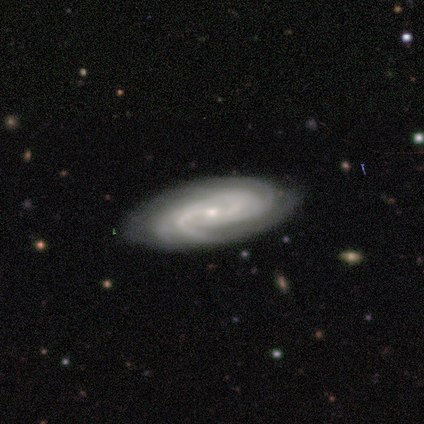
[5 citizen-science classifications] Smooth or featured? 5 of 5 (100%) said featured or disk. Edge-on disk? 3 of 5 (60%) said no. Bar? 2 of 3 (67%) said no. Spiral arms? 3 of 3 (100%) said yes. Spiral winding? 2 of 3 (67%) said medium. Spiral arm count? 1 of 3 (33%, tied with 4 and can't tell) said 2. Bulge size? 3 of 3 (100%) said small. Merging? 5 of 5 (100%) said none.